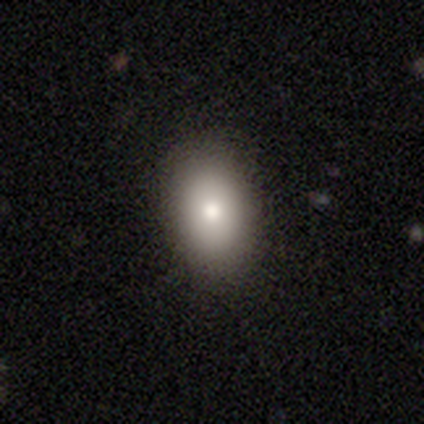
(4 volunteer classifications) A smooth galaxy with no disk features (100%) that is in between round and cigar-shaped (75%). Merging: none (100%).